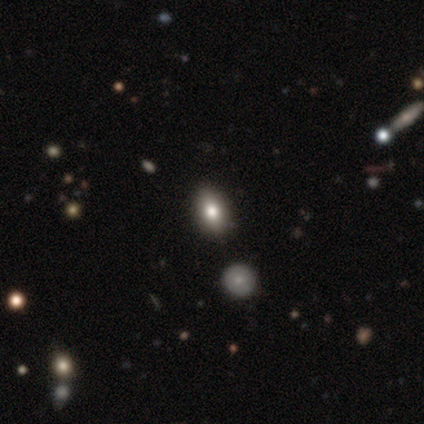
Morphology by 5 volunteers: This is likely a smooth galaxy (60%). How rounded: clearly in between (100%). Merging: likely none (67%).